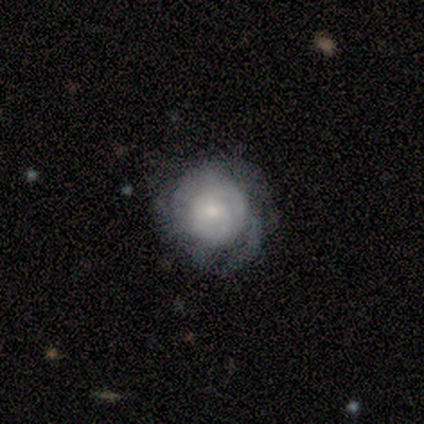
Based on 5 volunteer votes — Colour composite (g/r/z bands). It shows a smooth galaxy with no disk features (80%) that is round (75%). Merging: none (80%).